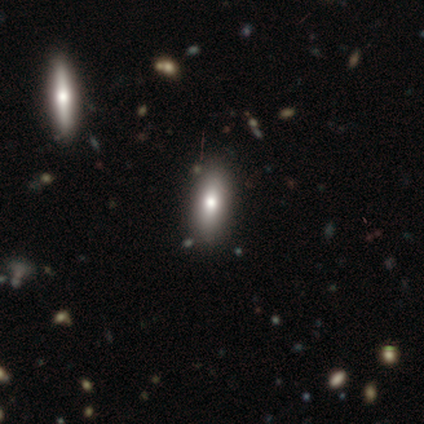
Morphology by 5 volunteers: smooth-or-featured: smooth: 60% | featured or disk: 40% | star or artifact: 0%
  how-rounded: in between: 67% | cigar-shaped: 33% | round: 0%
  merging: none: 80% | minor disturbance: 20% | major disturbance: 0% | merger: 0%